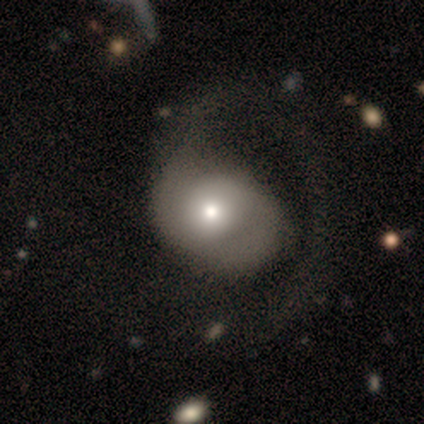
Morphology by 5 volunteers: Overall: featured or disk (60%; smooth 40%). Edge-on disk: no (100%). Bar: no (67%; weak 33%). Spiral arms: no (100%). Bulge size: moderate (100%). Merging: major disturbance (80%).